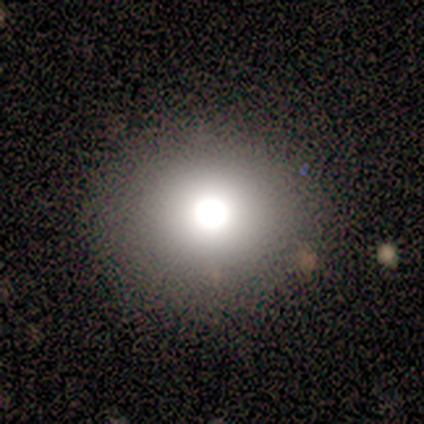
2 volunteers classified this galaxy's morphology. type=smooth (100%); roundness=round (100%); merging=none (100%).